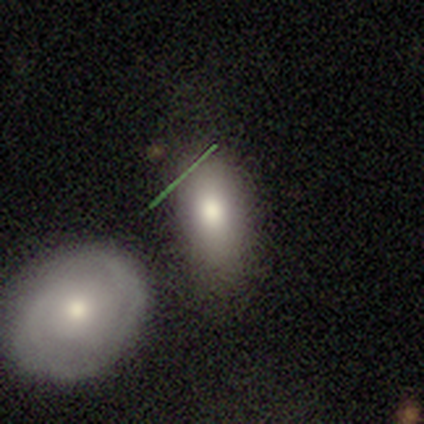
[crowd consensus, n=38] smooth_or_featured: smooth (p=0.71) [alt: featured or disk p=0.18]
how_rounded: in between (p=0.85) [alt: round p=0.07]
merging: none (p=0.65) [alt: minor disturbance p=0.21]